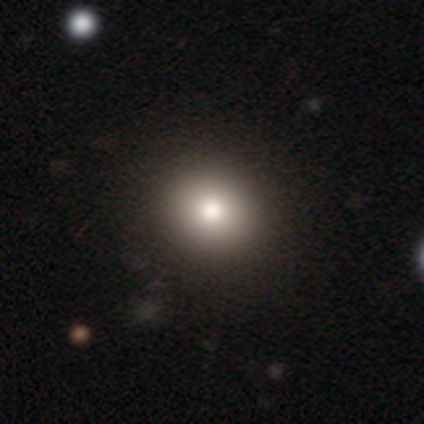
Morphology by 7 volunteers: smooth-or-featured: smooth: 71% | featured or disk: 14% | star or artifact: 14%
  how-rounded: round: 100% | in between: 0% | cigar-shaped: 0%
  merging: none: 100% | minor disturbance: 0% | major disturbance: 0% | merger: 0%